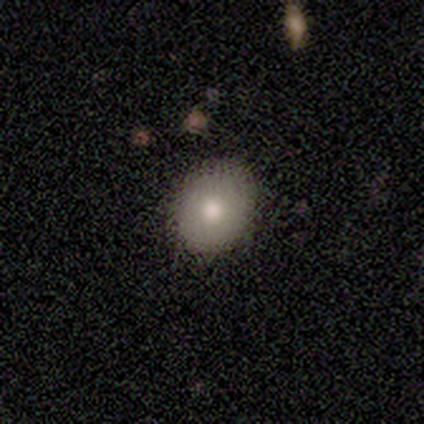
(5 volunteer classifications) A smooth galaxy with no disk features (100%) that is round (60%). Merging: none (80%).